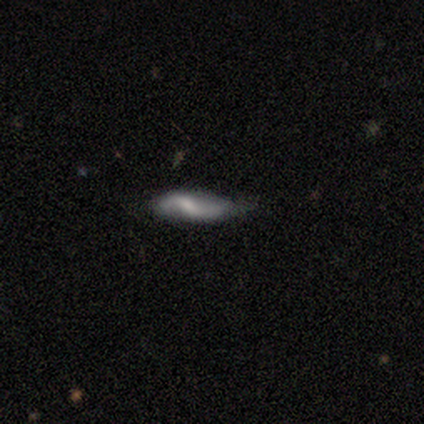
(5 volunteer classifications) This is likely a featured or disk galaxy (60%). It is likely not viewed edge-on (67%). Bar: clearly weak (100%). Spiral arm pattern: clearly yes (100%). Spiral arm count: clearly 2 (100%). Spiral winding: clearly loose (100%). Central bulge: possibly small (50%, tied with none). Merging: likely none (60%).